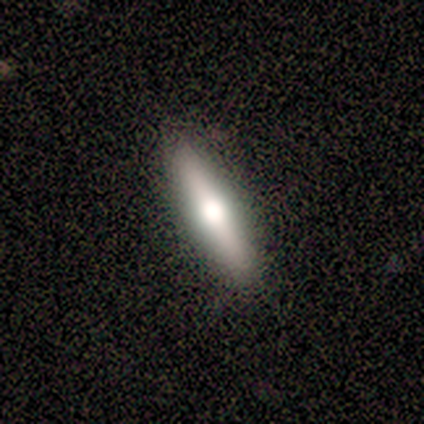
This appears to be a smooth galaxy with no disk features (40%, tied with featured or disk) that is cigar-shaped (100%). Merging: none (75%).